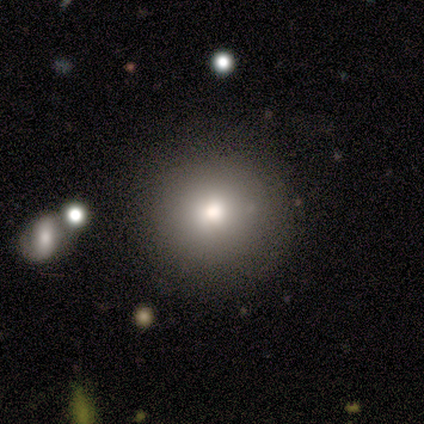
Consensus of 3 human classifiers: smooth 100%, featured or disk 0%, star or artifact 0%. Down the decision tree: how rounded — round (100%); merging — none (100%).